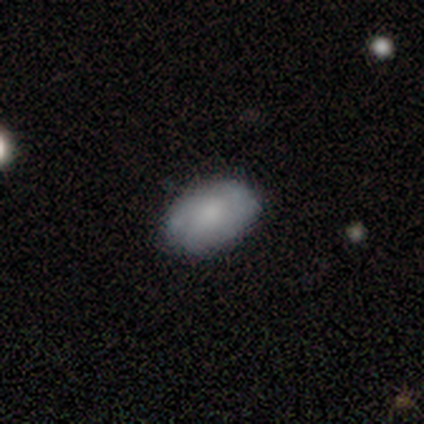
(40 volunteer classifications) Volunteers were most divided on "smooth or featured": smooth: 57%, featured or disk: 35%, star or artifact: 8%. More confident: how rounded — in between (91%); merging — none (76%).